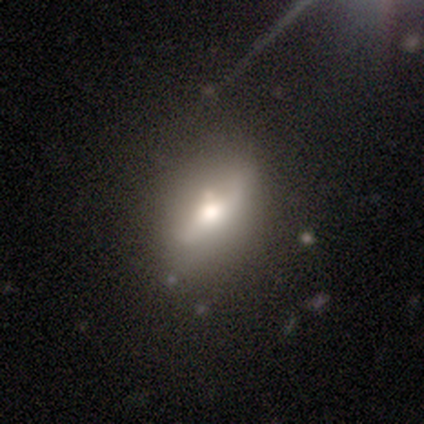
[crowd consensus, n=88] A featured or disk galaxy (50%) with no bar (52%), no spiral arms (66%) and a moderate central bulge (48%). Merging: none (56%).